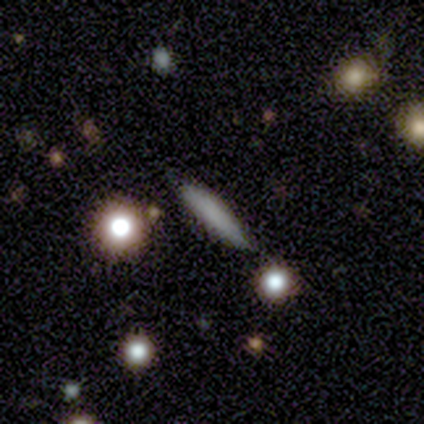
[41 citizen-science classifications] smooth-or-featured: smooth: 73% | featured or disk: 20% | star or artifact: 7%
  how-rounded: cigar-shaped: 93% | in between: 7% | round: 0%
  merging: none: 82% | minor disturbance: 16% | merger: 3% | major disturbance: 0%